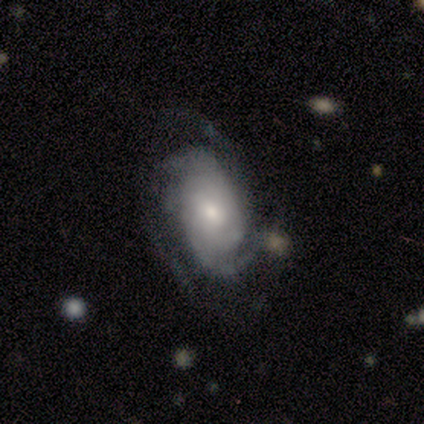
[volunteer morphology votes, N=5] smooth-or-featured: featured or disk: 100% | smooth: 0% | star or artifact: 0%
  disk-edge-on: no: 100% | yes: 0%
    bar: no: 60% | weak: 40% | strong: 0%
    has-spiral-arms: yes: 80% | no: 20%
      spiral-winding: tight: 50% (tied) | medium: 50% (tied) | loose: 0%
      spiral-arm-count: 2: 50% (tied) | 3: 50% (tied) | 1: 0% | 4: 0% | more than 4: 0% | can't tell: 0%
    bulge-size: small: 60% | large: 20% | moderate: 20% | dominant: 0% | none: 0%
  merging: none: 60% | minor disturbance: 20% | merger: 20% | major disturbance: 0%